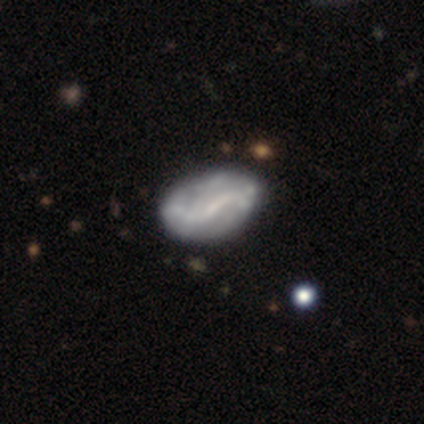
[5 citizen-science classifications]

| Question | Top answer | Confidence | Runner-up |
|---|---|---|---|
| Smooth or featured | smooth | 60% | featured or disk (20%) |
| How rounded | in between | 100% | — |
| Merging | minor disturbance | 50% | none (25%) |